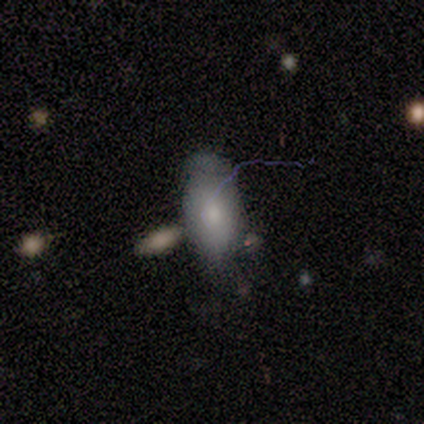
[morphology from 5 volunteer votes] This is clearly a smooth galaxy (80%). How rounded: clearly in between (100%). Merging: likely none (60%).